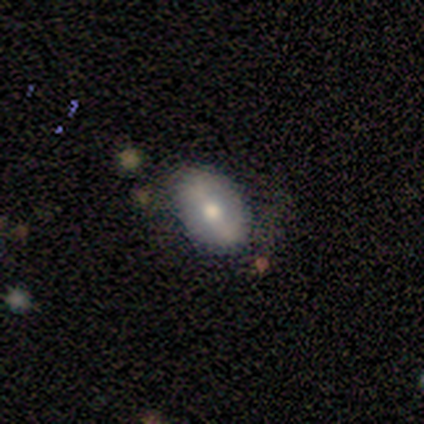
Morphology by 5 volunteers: Smooth or featured? 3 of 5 (60%) said smooth. How rounded? 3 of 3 (100%) said in between. Merging? 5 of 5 (100%) said none.